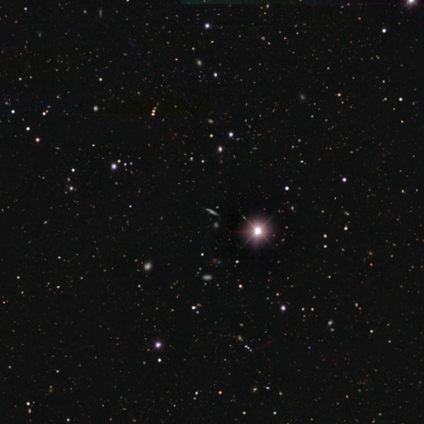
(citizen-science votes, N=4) Q: Smooth or featured?
A: star or artifact (100%)